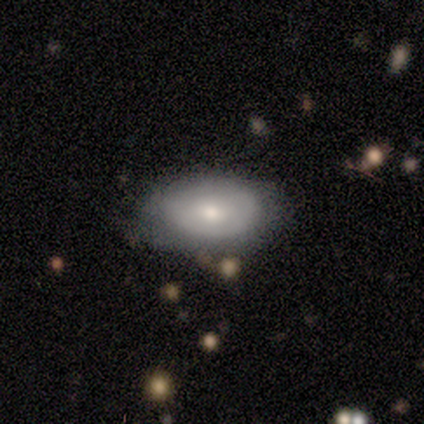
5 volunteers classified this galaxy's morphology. type=smooth (60%); roundness=in between (67%); merging=none (80%).